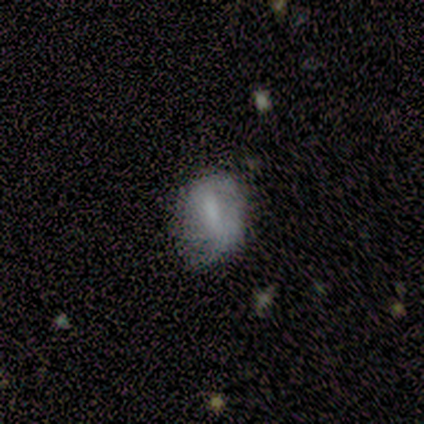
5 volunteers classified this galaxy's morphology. Smooth or featured? 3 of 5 (60%) said smooth. How rounded? 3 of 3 (100%) said in between. Merging? 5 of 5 (100%) said none.